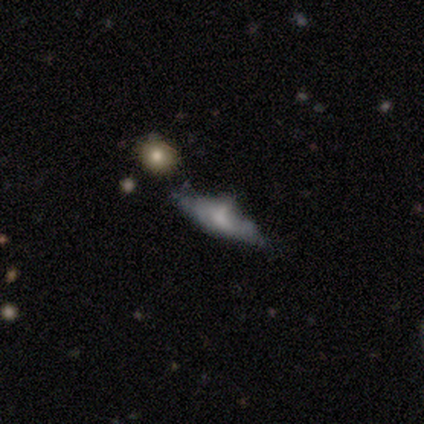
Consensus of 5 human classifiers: A smooth galaxy with no disk features (60%) that is cigar-shaped (67%). Merging: minor disturbance (40%, tied with merger).